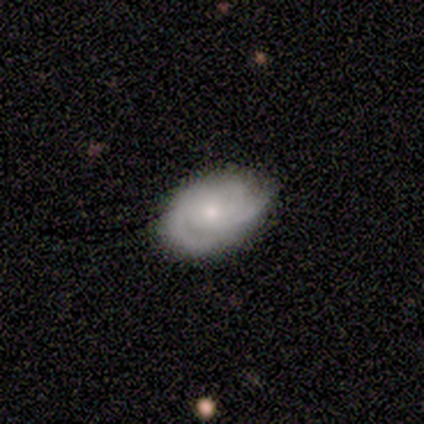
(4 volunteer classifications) This is likely a featured or disk galaxy (75%). It is likely not viewed edge-on (67%). Bar: clearly no (100%). Spiral arm pattern: clearly yes (100%). Spiral arm count: possibly 2 (50%, tied with can't tell). Spiral winding: possibly tight (50%, tied with medium). Central bulge: clearly small (100%). Merging: likely none (75%).